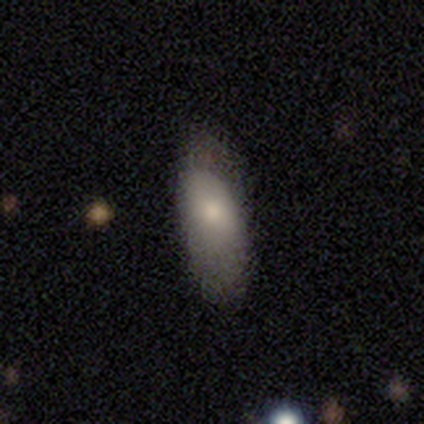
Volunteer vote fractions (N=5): Q: Smooth or featured?
A: smooth (80%); runner-up: featured or disk (20%)
Q: How rounded?
A: in between (75%); runner-up: cigar-shaped (25%)
Q: Merging?
A: none (80%); runner-up: minor disturbance (20%)